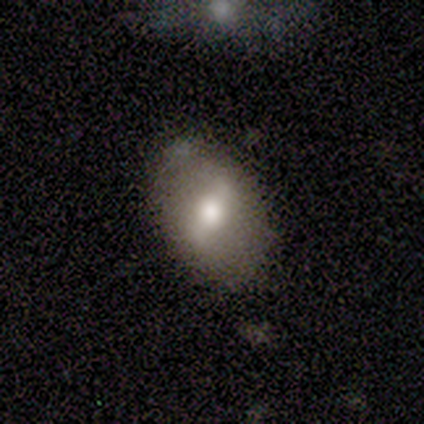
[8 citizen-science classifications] A smooth galaxy with no disk features (50%, tied with featured or disk) that is in between round and cigar-shaped (75%). Merging: none (100%).